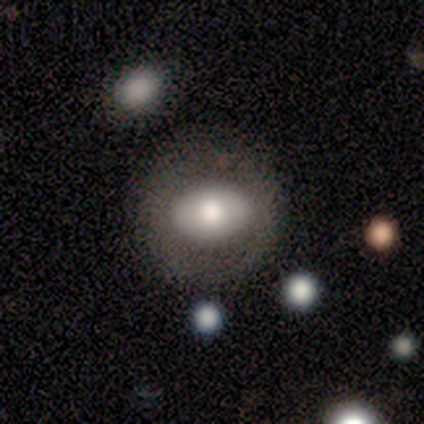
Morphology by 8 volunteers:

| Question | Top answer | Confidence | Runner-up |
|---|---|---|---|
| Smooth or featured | smooth | 62% | featured or disk (38%) |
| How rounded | round | 60% | in between (40%) |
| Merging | none | 75% | minor disturbance (12%) |